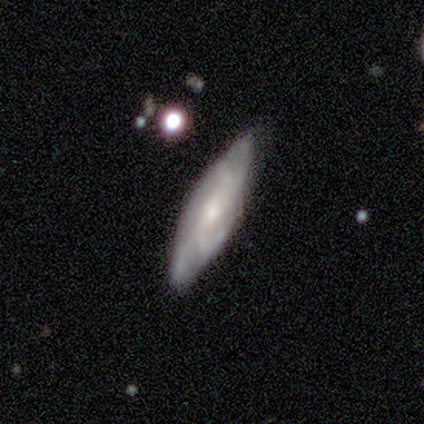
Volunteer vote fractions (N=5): Q: Smooth or featured?
A: featured or disk (80%); runner-up: smooth (20%)
Q: Edge-on disk?
A: no (75%); runner-up: yes (25%)
Q: Bar?
A: no (67%); runner-up: strong (33%)
Q: Spiral arms?
A: yes (100%)
Q: Spiral winding?
A: medium (67%); runner-up: tight (33%)
Q: Spiral arm count?
A: 4 (67%); runner-up: 3 (33%)
Q: Bulge size?
A: small (100%)
Q: Merging?
A: none (100%)